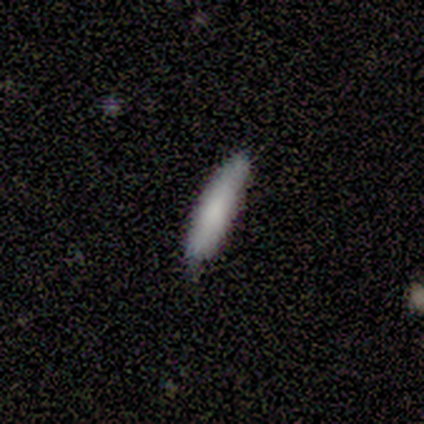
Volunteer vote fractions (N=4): smooth_or_featured: smooth (p=1.00)
how_rounded: cigar-shaped (p=0.75) [alt: in between p=0.25]
merging: none (p=0.75) [alt: minor disturbance p=0.25]